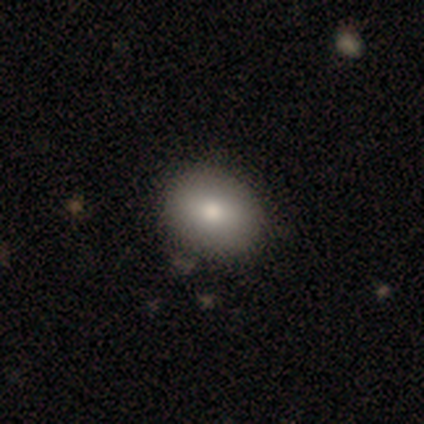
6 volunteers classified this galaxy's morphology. smooth-or-featured: smooth: 100% | featured or disk: 0% | star or artifact: 0%
  how-rounded: in between: 83% | round: 17% | cigar-shaped: 0%
  merging: none: 100% | minor disturbance: 0% | major disturbance: 0% | merger: 0%